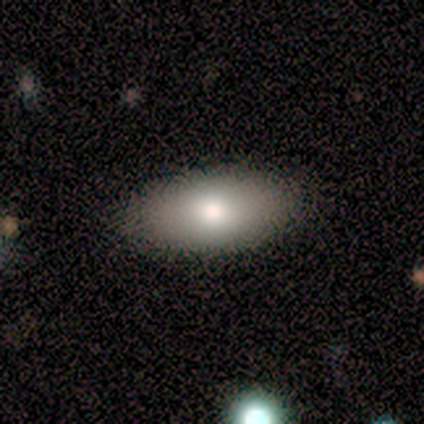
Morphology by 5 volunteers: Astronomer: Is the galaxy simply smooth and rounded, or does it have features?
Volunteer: smooth — 80%.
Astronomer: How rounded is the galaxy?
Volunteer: in between — 100%.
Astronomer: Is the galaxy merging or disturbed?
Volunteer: none — 100%.